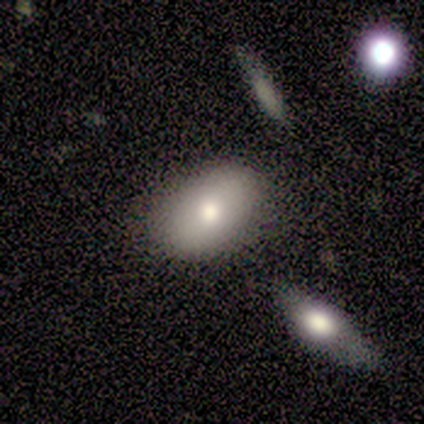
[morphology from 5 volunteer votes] A smooth galaxy with no disk features (100%) that is in between round and cigar-shaped (100%). Merging: none (60%).